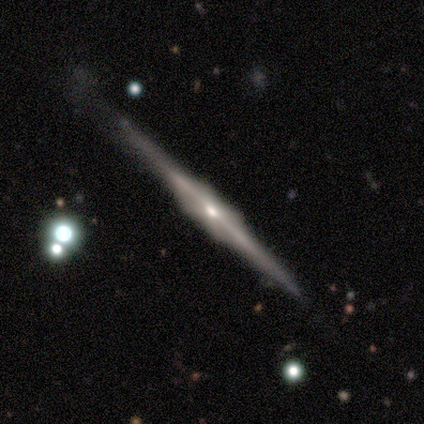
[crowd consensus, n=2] smooth_or_featured: featured or disk (p=1.00)
disk_edge_on: yes (p=1.00)
edge_on_bulge: boxy (p=1.00)
merging: none (p=0.50) [tied with: minor disturbance p=0.50]